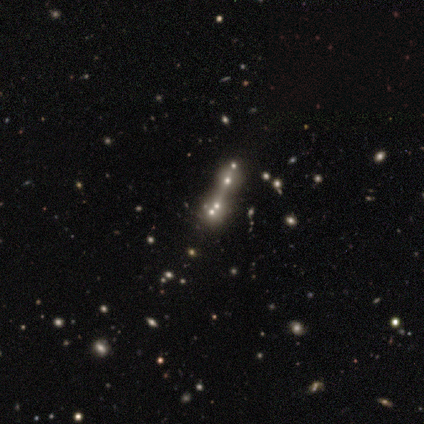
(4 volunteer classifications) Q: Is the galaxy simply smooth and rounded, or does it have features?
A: featured or disk — 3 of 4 (75%).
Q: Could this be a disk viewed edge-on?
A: no — 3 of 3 (100%).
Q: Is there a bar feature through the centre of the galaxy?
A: no — 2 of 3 (67%).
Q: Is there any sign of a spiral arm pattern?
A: no — 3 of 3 (100%).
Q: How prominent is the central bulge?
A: none — 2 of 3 (67%).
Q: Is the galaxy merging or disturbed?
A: merger — 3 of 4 (75%).